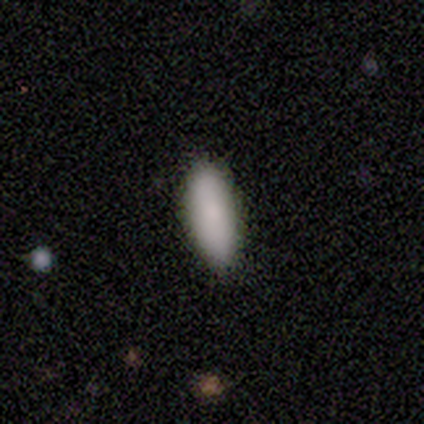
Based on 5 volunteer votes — Morphology: type=smooth (100%); roundness=in between (60%); merging=none (80%).